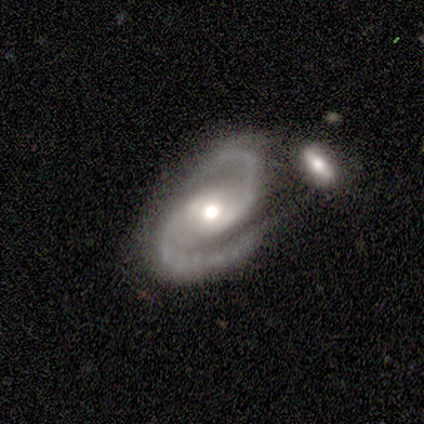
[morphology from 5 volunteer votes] Q: Smooth or featured?
A: featured or disk (80%); runner-up: smooth (20%)
Q: Edge-on disk?
A: no (100%)
Q: Bar?
A: weak (50%); runner-up: strong (25%)
Q: Spiral arms?
A: yes (100%)
Q: Spiral winding?
A: medium (75%); runner-up: tight (25%)
Q: Spiral arm count?
A: 2 (100%)
Q: Bulge size?
A: moderate (75%); runner-up: small (25%)
Q: Merging?
A: none (60%); runner-up: merger (40%)